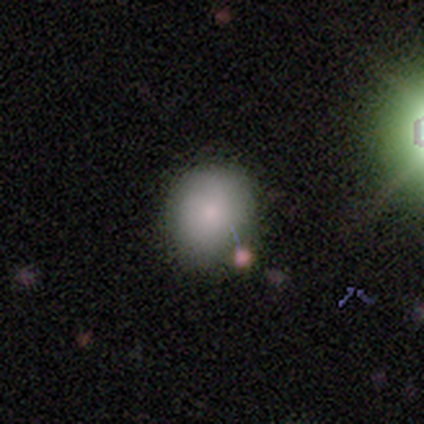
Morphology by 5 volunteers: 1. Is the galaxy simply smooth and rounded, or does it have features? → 100% smooth, 0% featured or disk, 0% star or artifact.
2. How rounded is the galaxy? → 80% round, 20% in between, 0% cigar-shaped.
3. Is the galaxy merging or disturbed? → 80% none, 20% major disturbance, 0% minor disturbance, 0% merger.